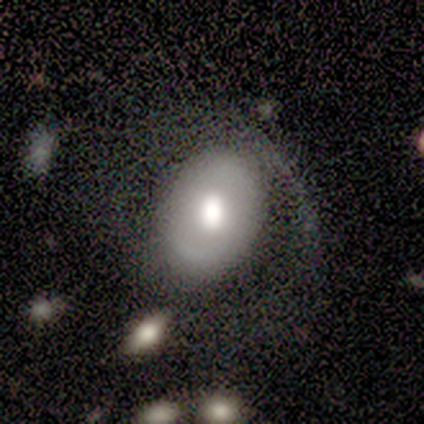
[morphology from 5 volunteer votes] Q: Smooth or featured?
A: featured or disk (60%); runner-up: smooth (40%)
Q: Edge-on disk?
A: no (100%)
Q: Bar?
A: no (67%); runner-up: weak (33%)
Q: Spiral arms?
A: no (67%); runner-up: yes (33%)
Q: Bulge size?
A: moderate (67%); runner-up: large (33%)
Q: Merging?
A: none (40%); tied with: major disturbance (40%)